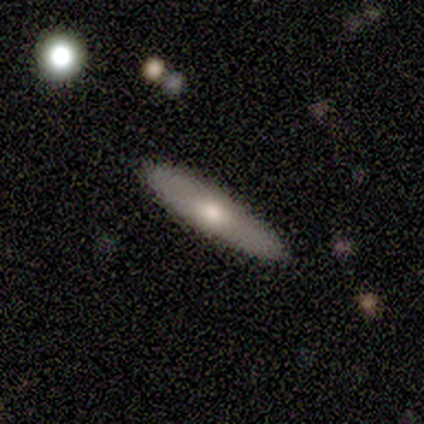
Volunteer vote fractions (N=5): smooth 80%, featured or disk 20%, star or artifact 0%. Down the decision tree: how rounded — in between (50%, tied with cigar-shaped); merging — none (80%).